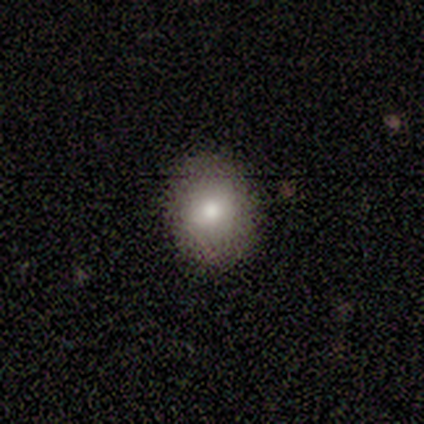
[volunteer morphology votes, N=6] type=smooth (83%); roundness=round (60%); merging=none (100%).